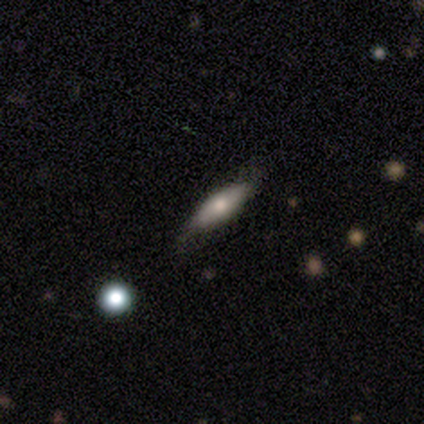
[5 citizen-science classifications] Q: Smooth or featured?
A: smooth (60%); runner-up: featured or disk (20%)
Q: How rounded?
A: in between (100%)
Q: Merging?
A: none (50%); tied with: minor disturbance (50%)